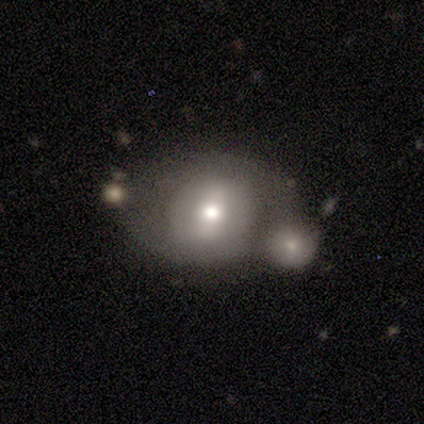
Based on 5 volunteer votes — Smooth or featured?
  - smooth: 60% *
  - featured or disk: 40%
  - star or artifact: 0%
How rounded?
  - in between: 67% *
  - round: 33%
  - cigar-shaped: 0%
Merging?
  - none: 40% * (tied)
  - merger: 40% * (tied)
  - minor disturbance: 20%
  - major disturbance: 0%